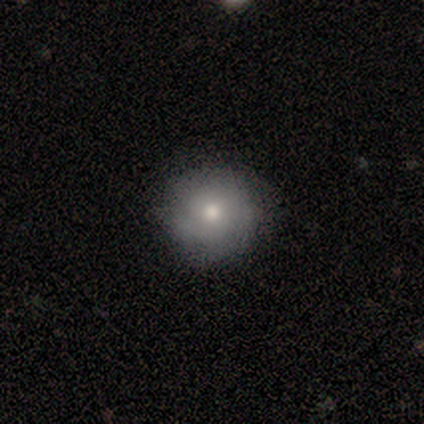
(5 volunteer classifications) Volunteers were most divided on "smooth or featured": smooth: 60%, featured or disk: 40%, star or artifact: 0%. More confident: how rounded — round (100%); merging — none (60%).